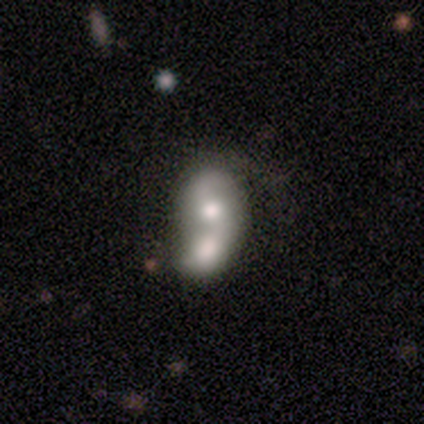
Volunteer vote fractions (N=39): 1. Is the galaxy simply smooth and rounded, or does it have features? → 54% smooth, 41% featured or disk, 5% star or artifact.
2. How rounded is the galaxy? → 62% in between, 38% round, 0% cigar-shaped.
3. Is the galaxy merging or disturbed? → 68% merger, 11% none, 8% minor disturbance, 3% major disturbance.